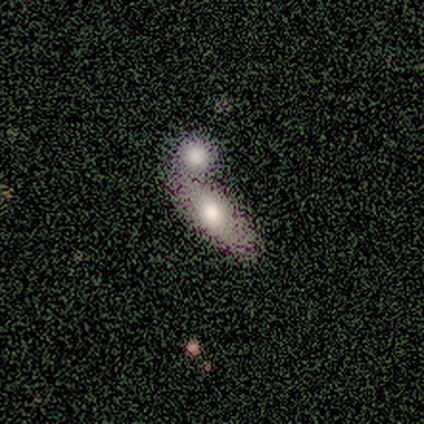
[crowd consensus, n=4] A smooth galaxy with no disk features (100%) that is in between round and cigar-shaped (75%).

Vote fractions:
- Smooth or featured? smooth: 100% / featured or disk: 0% / star or artifact: 0%
- How rounded? in between: 75% / cigar-shaped: 25% / round: 0%
- Merging? merger: 50% / minor disturbance: 25% / major disturbance: 25% / none: 0%